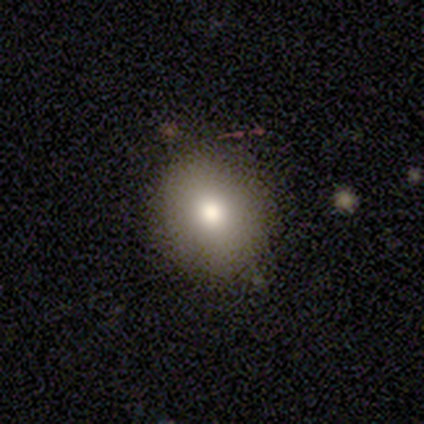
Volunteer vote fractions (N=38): smooth_or_featured: smooth (p=0.76) [alt: featured or disk p=0.16]
how_rounded: round (p=0.83) [alt: in between p=0.17]
merging: none (p=0.86) [alt: minor disturbance p=0.11]